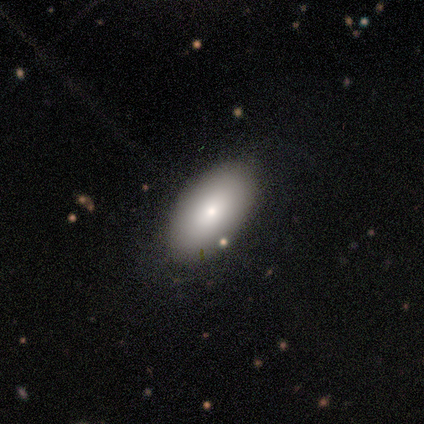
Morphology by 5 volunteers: Volunteers were most divided on "smooth or featured": smooth: 80%, featured or disk: 20%, star or artifact: 0%. More confident: how rounded — in between (100%); merging — none (80%).